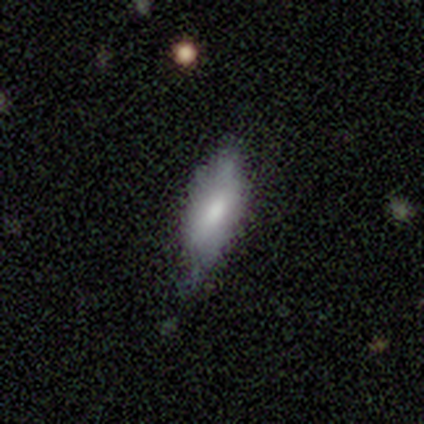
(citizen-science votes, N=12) Overall: smooth (92%). How rounded: in between (55%; cigar-shaped 45%). Merging: none (58%; minor disturbance 33%).